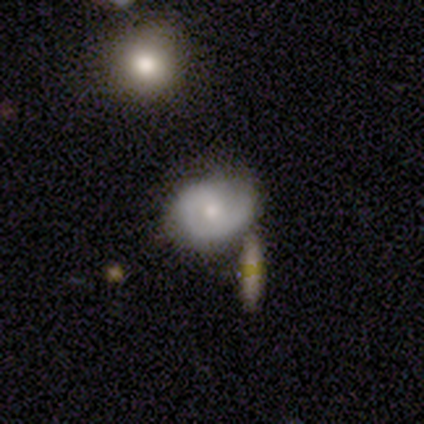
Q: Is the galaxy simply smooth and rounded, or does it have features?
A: featured or disk — 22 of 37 (59%).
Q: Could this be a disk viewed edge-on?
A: no — 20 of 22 (91%).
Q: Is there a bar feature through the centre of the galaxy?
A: no — 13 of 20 (65%).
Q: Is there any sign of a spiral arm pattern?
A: yes — 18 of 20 (90%).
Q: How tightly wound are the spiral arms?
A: tight — 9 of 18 (50%).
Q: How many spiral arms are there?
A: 1 — 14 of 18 (78%).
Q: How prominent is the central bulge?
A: moderate — 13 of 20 (65%).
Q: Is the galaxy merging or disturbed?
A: none — 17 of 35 (49%).